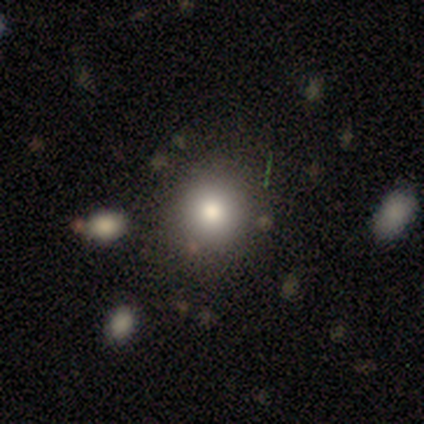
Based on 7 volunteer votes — Morphology: type=smooth (86%); roundness=round (67%); merging=none (67%).